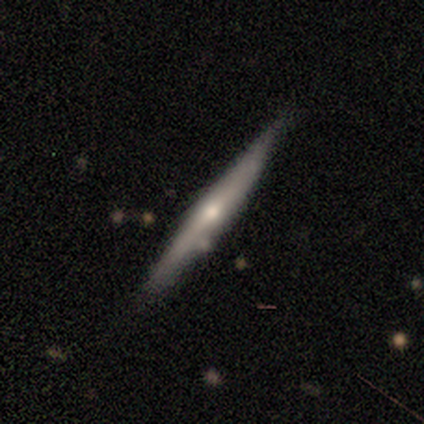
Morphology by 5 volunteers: Smooth or featured?
  - smooth: 60% *
  - featured or disk: 20%
  - star or artifact: 20%
How rounded?
  - cigar-shaped: 100% *
  - round: 0%
  - in between: 0%
Merging?
  - none: 75% *
  - minor disturbance: 25%
  - major disturbance: 0%
  - merger: 0%